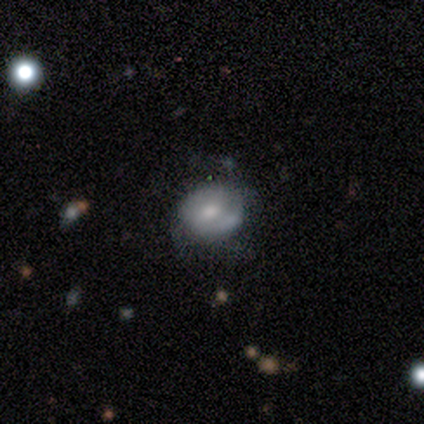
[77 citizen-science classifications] Volunteers were most divided on "smooth or featured": smooth: 47%, featured or disk: 45%, star or artifact: 8%. More confident: how rounded — round (56%); merging — none (54%).